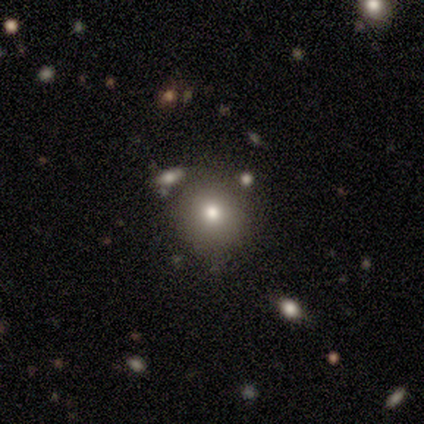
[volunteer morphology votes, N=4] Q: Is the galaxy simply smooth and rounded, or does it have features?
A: smooth — 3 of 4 (75%).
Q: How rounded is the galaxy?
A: round — 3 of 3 (100%).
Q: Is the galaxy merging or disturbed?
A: none — 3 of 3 (100%).